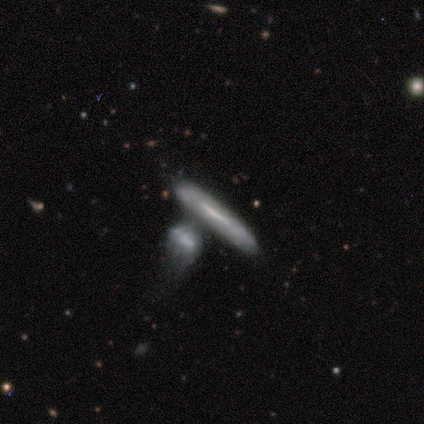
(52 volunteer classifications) Smooth or featured? featured or disk (48%)
Edge-on disk? yes (72%)
Edge-on bulge? none (56%)
Merging? merger (57%)